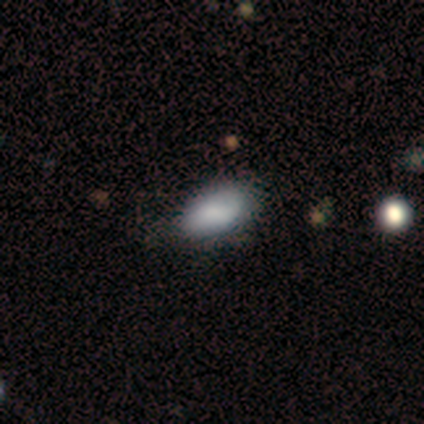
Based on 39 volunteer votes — Volunteers were most divided on "smooth or featured": smooth: 74%, star or artifact: 15%, featured or disk: 10%. More confident: how rounded — in between (86%); merging — none (79%).